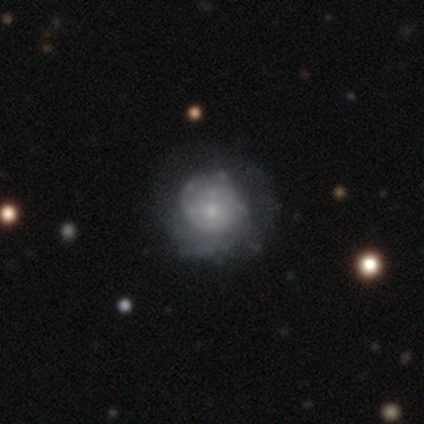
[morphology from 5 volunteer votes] Smooth or featured? 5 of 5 (100%) said featured or disk. Edge-on disk? 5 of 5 (100%) said no. Bar? 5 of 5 (100%) said no. Spiral arms? 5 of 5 (100%) said yes. Spiral winding? 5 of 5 (100%) said tight. Spiral arm count? 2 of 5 (40%) said can't tell. Bulge size? 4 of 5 (80%) said small. Merging? 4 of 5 (80%) said none.